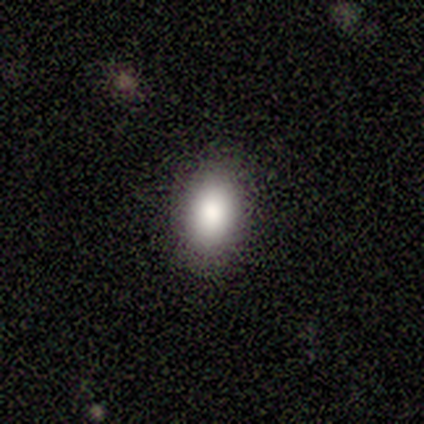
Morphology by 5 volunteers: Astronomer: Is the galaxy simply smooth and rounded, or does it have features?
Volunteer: smooth — 100%.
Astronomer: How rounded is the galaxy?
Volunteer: in between — 80%.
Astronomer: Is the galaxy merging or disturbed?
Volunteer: none — 100%.